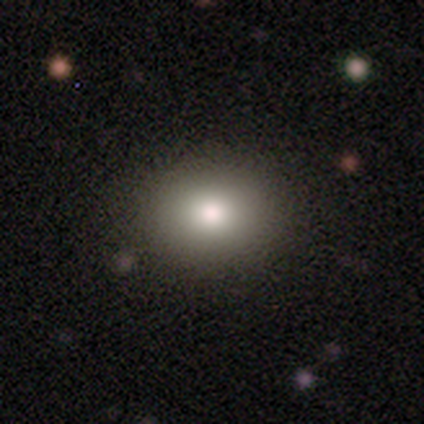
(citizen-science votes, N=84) Smooth or featured: smooth — 88% (featured or disk — 6%)
How rounded: round — 58% (in between — 41%)
Merging: none — 86% (minor disturbance — 11%)